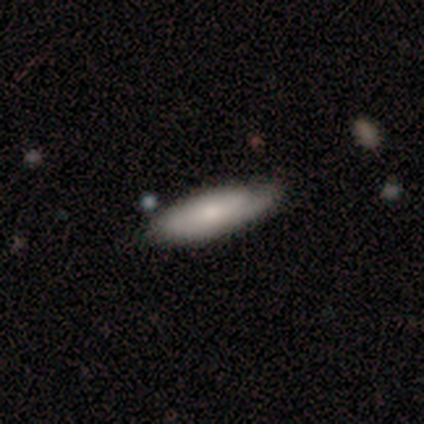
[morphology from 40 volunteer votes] Smooth or featured? smooth (60%)
How rounded? in between (50%, tied with cigar-shaped)
Merging? none (77%)